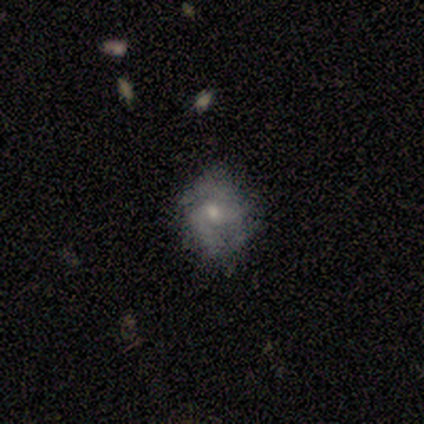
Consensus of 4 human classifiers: A smooth galaxy with no disk features (50%, tied with featured or disk) that is round (50%, tied with in between).

Vote fractions:
- Smooth or featured? smooth: 50% (tied) / featured or disk: 50% (tied) / star or artifact: 0%
- How rounded? round: 50% (tied) / in between: 50% (tied) / cigar-shaped: 0%
- Merging? none: 50% (tied) / minor disturbance: 50% (tied) / major disturbance: 0% / merger: 0%